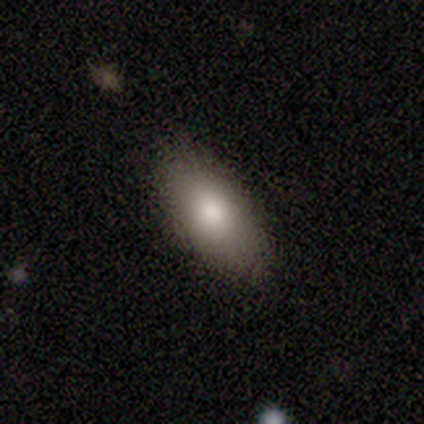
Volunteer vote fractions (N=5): Smooth or featured: smooth — 80% (featured or disk — 20%)
How rounded: in between — 100%
Merging: none — 100%